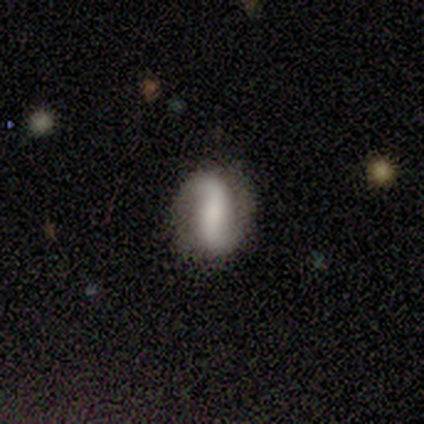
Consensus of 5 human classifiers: Q: Smooth or featured?
A: featured or disk (100%)
Q: Edge-on disk?
A: no (100%)
Q: Bar?
A: weak (60%); runner-up: strong (40%)
Q: Spiral arms?
A: yes (80%); runner-up: no (20%)
Q: Spiral winding?
A: loose (100%)
Q: Spiral arm count?
A: 2 (100%)
Q: Bulge size?
A: small (60%); runner-up: moderate (40%)
Q: Merging?
A: none (100%)